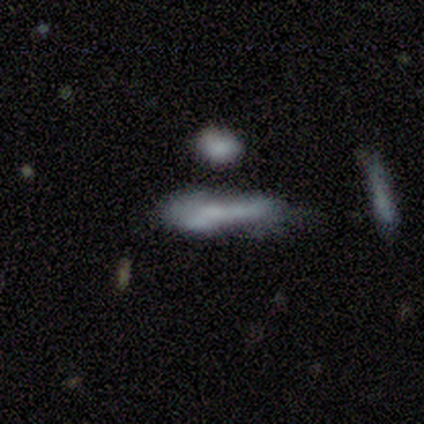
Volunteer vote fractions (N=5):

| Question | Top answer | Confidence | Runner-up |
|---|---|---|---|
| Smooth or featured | smooth | 60% | featured or disk (20%) |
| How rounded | in between | 100% | — |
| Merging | none | 50% | minor disturbance (25%) |